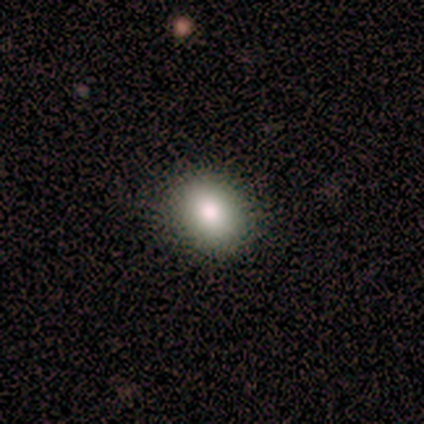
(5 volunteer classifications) smooth_or_featured: smooth (p=0.80) [alt: featured or disk p=0.20]
how_rounded: round (p=1.00)
merging: none (p=1.00)